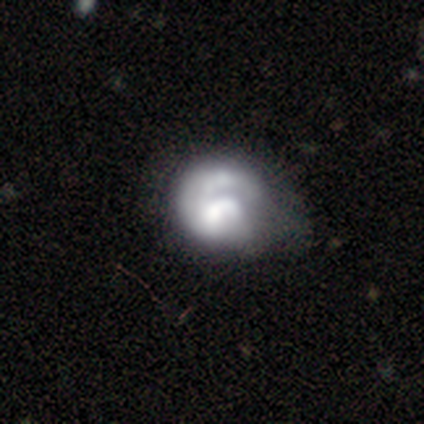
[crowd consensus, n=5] This appears to be a smooth galaxy with no disk features (80%) that is round (50%, tied with in between). Merging: none (40%, tied with merger).